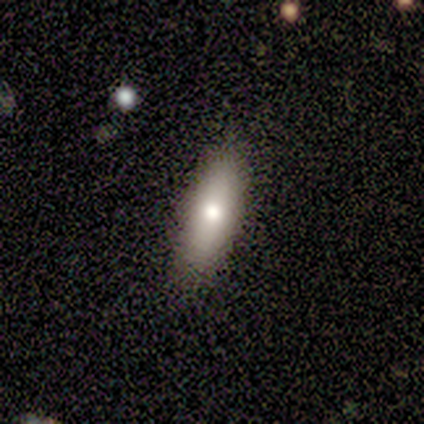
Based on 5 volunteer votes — Smooth or featured? smooth (60%)
How rounded? in between (100%)
Merging? none (75%)